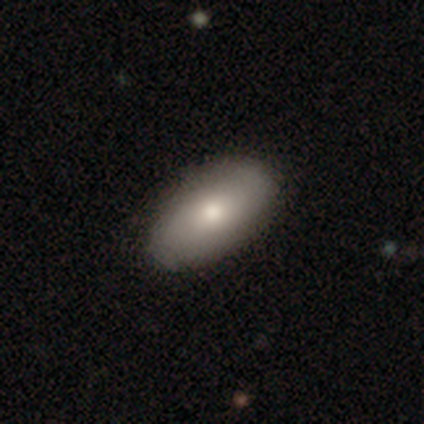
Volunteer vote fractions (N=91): This appears to be a smooth galaxy with no disk features (78%) that is in between round and cigar-shaped (93%). Merging: none (90%).